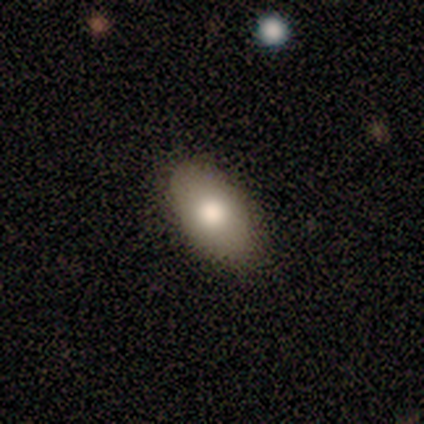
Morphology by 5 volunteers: Volunteers were most divided on "smooth or featured": smooth: 80%, featured or disk: 20%, star or artifact: 0%. More confident: how rounded — in between (100%); merging — none (80%).